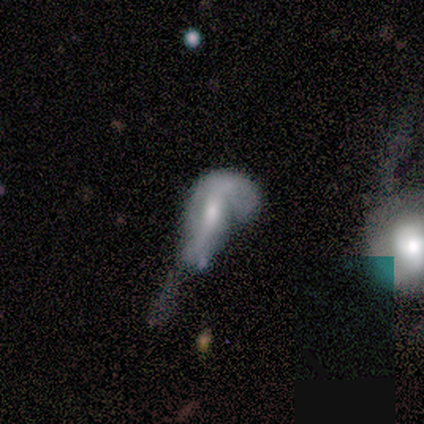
Smooth or featured? smooth (57%)
How rounded? in between (50%, tied with cigar-shaped)
Merging? major disturbance (57%)